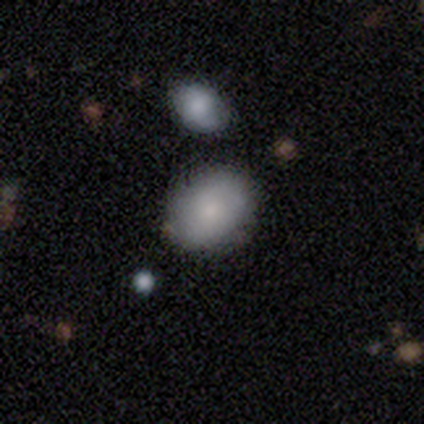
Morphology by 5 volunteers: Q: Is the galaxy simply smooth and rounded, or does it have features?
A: smooth — 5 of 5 (100%).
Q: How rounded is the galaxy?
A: in between — 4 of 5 (80%).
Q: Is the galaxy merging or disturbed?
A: none — 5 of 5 (100%).